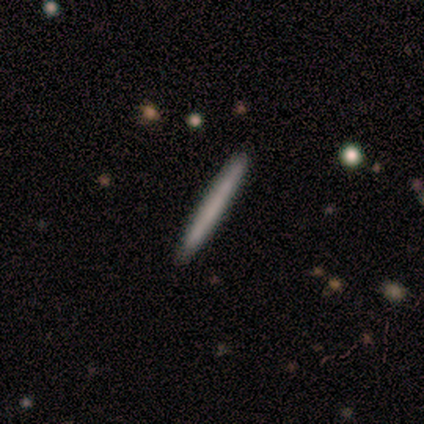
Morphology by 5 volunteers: smooth 80%, featured or disk 20%, star or artifact 0%. Down the decision tree: how rounded — cigar-shaped (100%); merging — none (100%).